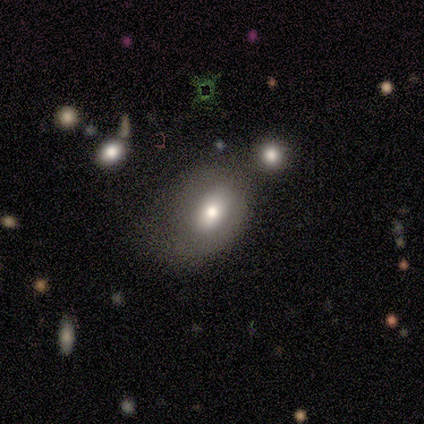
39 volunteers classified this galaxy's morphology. Q: Smooth or featured?
A: smooth (51%); runner-up: featured or disk (36%)
Q: How rounded?
A: in between (85%); runner-up: round (10%)
Q: Merging?
A: none (35%); tied with: minor disturbance (35%)